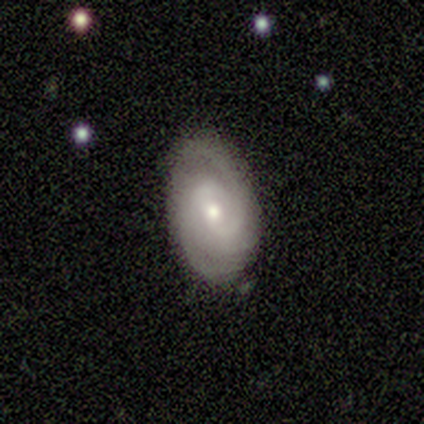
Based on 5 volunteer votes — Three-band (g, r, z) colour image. It shows a featured or disk galaxy (80%) with no bar (67%), 2 (67%) tight (33%, tied with medium and loose) spiral arms (100%) and a small central bulge (67%). Merging: minor disturbance (60%).